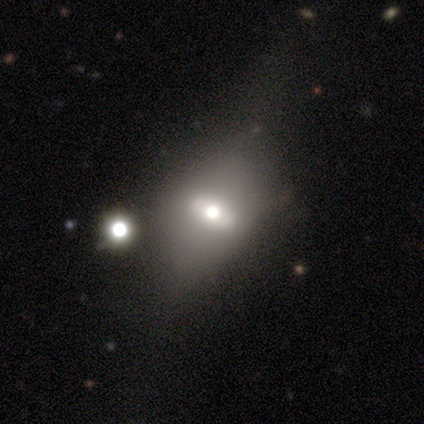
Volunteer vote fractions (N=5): A smooth galaxy with no disk features (60%) that is in between round and cigar-shaped (67%).

Vote fractions:
- Smooth or featured? smooth: 60% / featured or disk: 20% / star or artifact: 20%
- How rounded? in between: 67% / cigar-shaped: 33% / round: 0%
- Merging? none: 25% (tied) / minor disturbance: 25% (tied) / major disturbance: 25% (tied) / merger: 25% (tied)